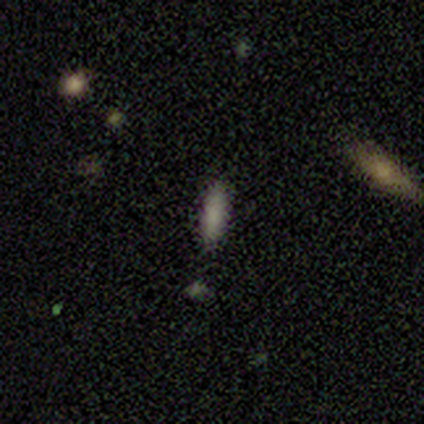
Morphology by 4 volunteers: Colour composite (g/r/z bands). It shows a smooth galaxy with no disk features (75%) that is cigar-shaped (67%). Merging: none (100%).